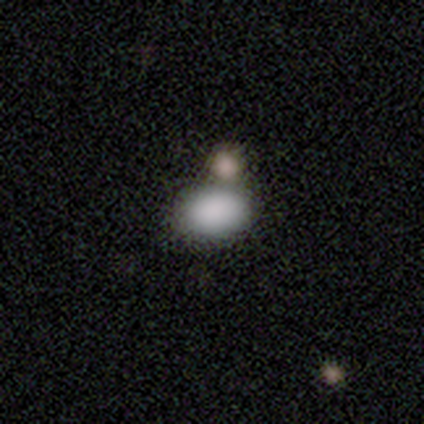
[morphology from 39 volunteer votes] Smooth or featured?
  - smooth: 90% *
  - featured or disk: 5%
  - star or artifact: 5%
How rounded?
  - in between: 80% *
  - round: 20%
  - cigar-shaped: 0%
Merging?
  - none: 54% *
  - merger: 22%
  - minor disturbance: 3%
  - major disturbance: 3%